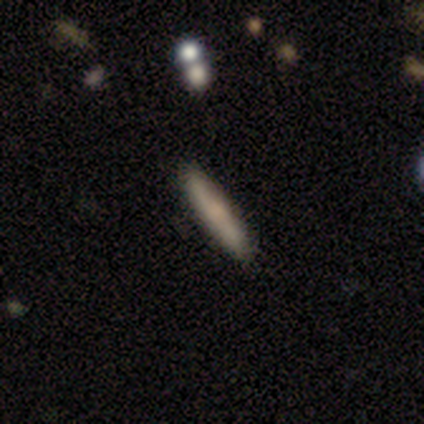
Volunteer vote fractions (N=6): A smooth galaxy with no disk features (100%) that is cigar-shaped (83%). Merging: none (83%).